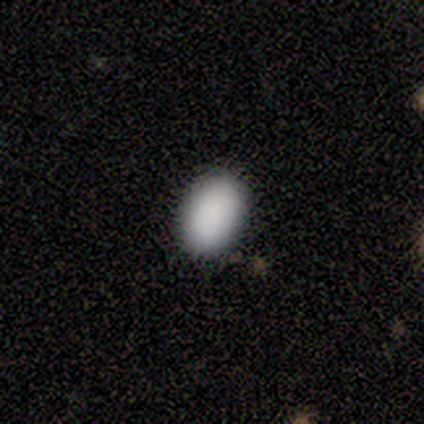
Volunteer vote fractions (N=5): Smooth or featured?
  - smooth: 100% *
  - featured or disk: 0%
  - star or artifact: 0%
How rounded?
  - in between: 80% *
  - round: 20%
  - cigar-shaped: 0%
Merging?
  - none: 80% *
  - minor disturbance: 20%
  - major disturbance: 0%
  - merger: 0%